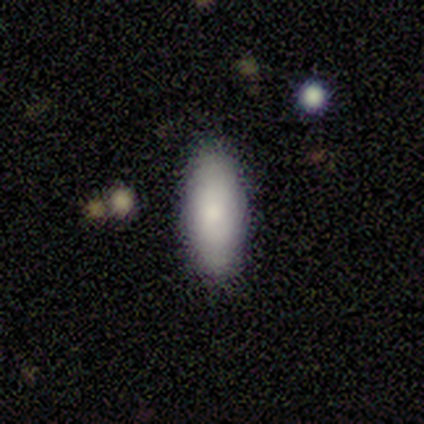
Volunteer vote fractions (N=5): Morphology: type=smooth (60%); roundness=cigar-shaped (100%); merging=none (75%).